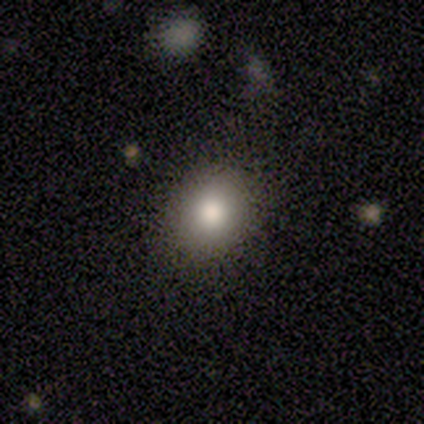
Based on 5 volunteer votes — Q: Smooth or featured?
A: smooth (40%); tied with: featured or disk (40%)
Q: How rounded?
A: in between (100%)
Q: Merging?
A: none (75%); runner-up: major disturbance (25%)